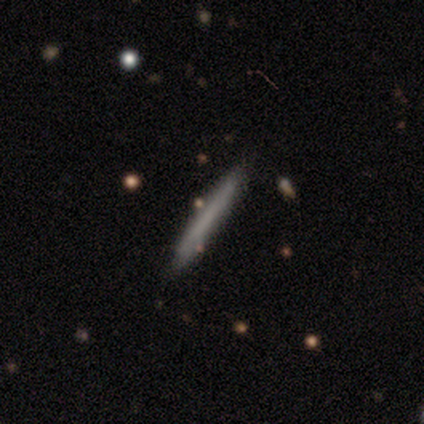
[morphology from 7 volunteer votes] type=smooth (57%); roundness=cigar-shaped (100%); merging=none (71%).